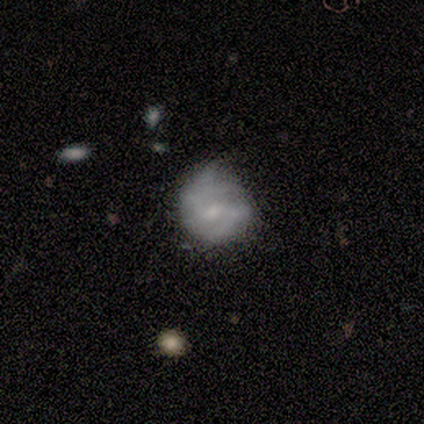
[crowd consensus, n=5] Smooth or featured? smooth (60%)
How rounded? round (100%)
Merging? minor disturbance (100%)